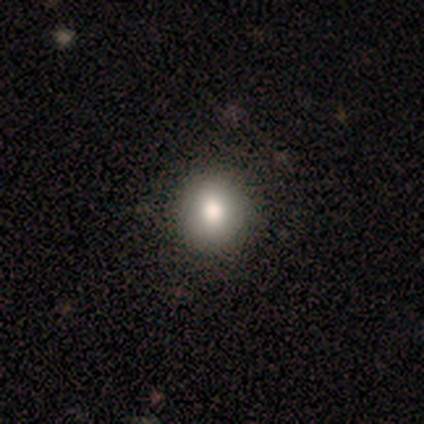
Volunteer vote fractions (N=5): This appears to be a smooth galaxy with no disk features (80%) that is round (100%). Merging: none (100%).